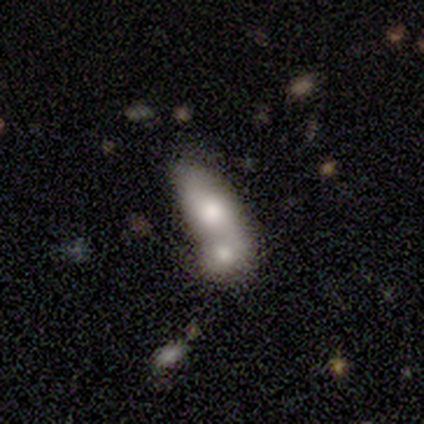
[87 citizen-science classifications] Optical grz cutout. It shows a smooth galaxy with no disk features (59%) that is in between round and cigar-shaped (76%). Merging: merger (69%).